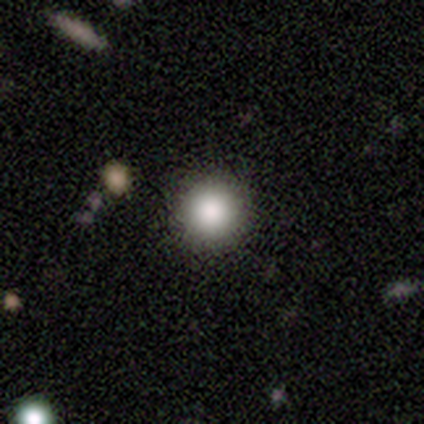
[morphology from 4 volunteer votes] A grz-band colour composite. It shows a smooth galaxy with no disk features (100%) that is round (100%). Merging: none (100%).